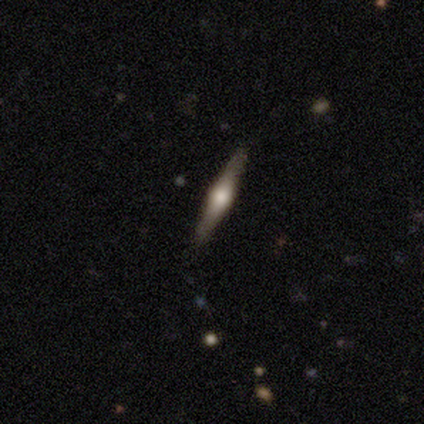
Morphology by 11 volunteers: type=featured or disk (64%); edge-on=yes (100%); edge-on bulge=rounded (100%); merging=none (82%).